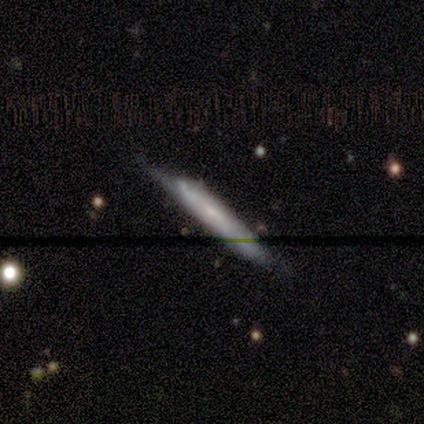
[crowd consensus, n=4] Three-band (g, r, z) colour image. It shows a smooth galaxy with no disk features (50%, tied with featured or disk) that is cigar-shaped (100%). Merging: none (50%).